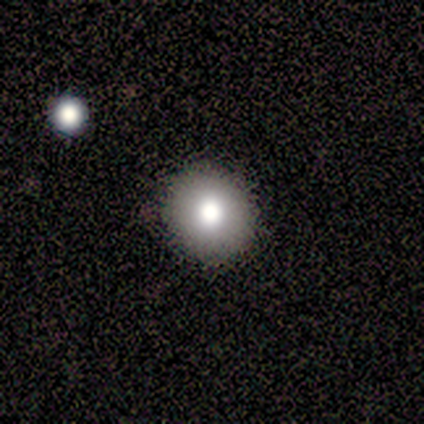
A smooth galaxy with no disk features (91%) that is round (70%). Merging: none (91%).